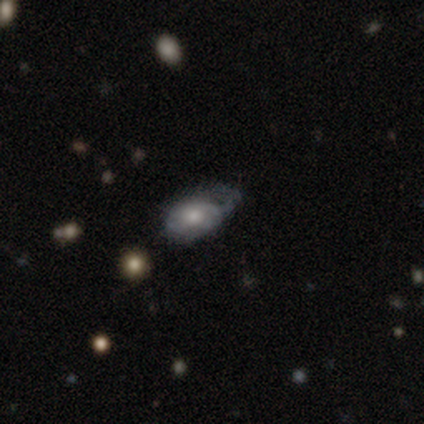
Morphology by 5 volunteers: smooth-or-featured: featured or disk: 60% | smooth: 40% | star or artifact: 0%
  disk-edge-on: no: 100% | yes: 0%
    bar: no: 100% | strong: 0% | weak: 0%
    has-spiral-arms: no: 67% | yes: 33%
    bulge-size: moderate: 67% | large: 33% | dominant: 0% | small: 0% | none: 0%
  merging: minor disturbance: 80% | major disturbance: 20% | none: 0% | merger: 0%